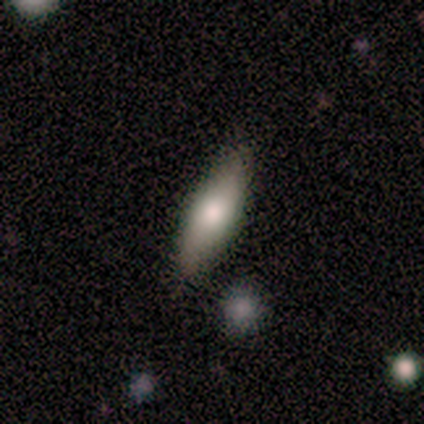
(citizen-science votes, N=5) Smooth or featured?
  - smooth: 60% *
  - featured or disk: 40%
  - star or artifact: 0%
How rounded?
  - in between: 100% *
  - round: 0%
  - cigar-shaped: 0%
Merging?
  - none: 80% *
  - minor disturbance: 20%
  - major disturbance: 0%
  - merger: 0%